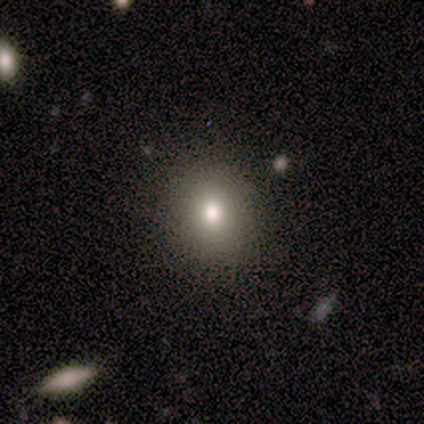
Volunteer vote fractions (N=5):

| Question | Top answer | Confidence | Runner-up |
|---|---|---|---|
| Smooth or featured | smooth | 60% | featured or disk (20%) |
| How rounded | round | 100% | — |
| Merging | none | 100% | — |